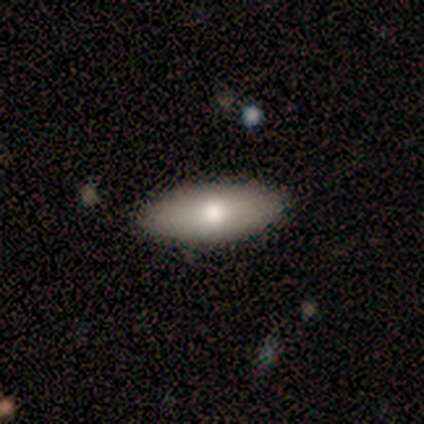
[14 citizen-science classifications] A smooth galaxy with no disk features (79%) that is in between round and cigar-shaped (100%).

Vote fractions:
- Smooth or featured? smooth: 79% / featured or disk: 14% / star or artifact: 7%
- How rounded? in between: 100% / round: 0% / cigar-shaped: 0%
- Merging? none: 77% / minor disturbance: 15% / major disturbance: 8% / merger: 0%